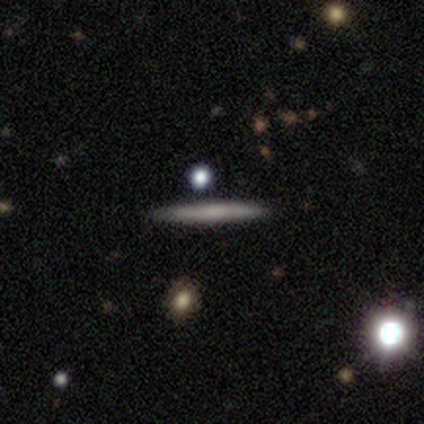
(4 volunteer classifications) Smooth or featured? smooth (50%, tied with featured or disk)
How rounded? cigar-shaped (100%)
Merging? none (100%)